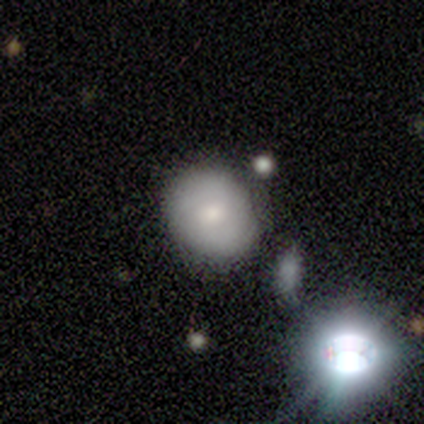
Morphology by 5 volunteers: This appears to be a smooth galaxy with no disk features (60%) that is round (100%). Merging: none (100%).